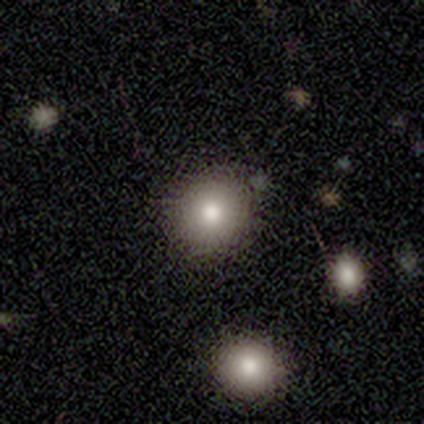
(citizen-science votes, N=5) Smooth or featured?
  - smooth: 80% *
  - featured or disk: 20%
  - star or artifact: 0%
How rounded?
  - round: 100% *
  - in between: 0%
  - cigar-shaped: 0%
Merging?
  - none: 80% *
  - major disturbance: 20%
  - minor disturbance: 0%
  - merger: 0%